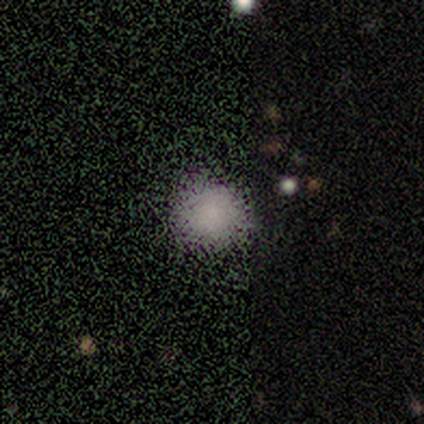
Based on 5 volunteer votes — Volunteers were most divided on "merging": none: 75%, minor disturbance: 25%, major disturbance: 0%, merger: 0%. More confident: how rounded — round (100%); smooth or featured — smooth (80%).